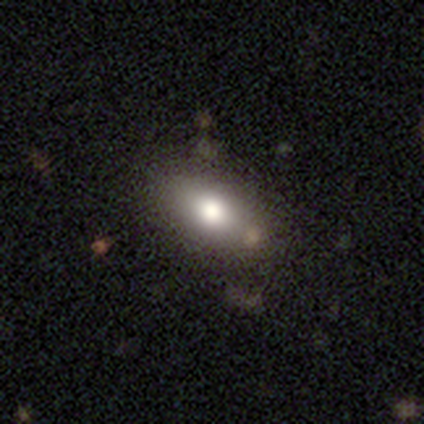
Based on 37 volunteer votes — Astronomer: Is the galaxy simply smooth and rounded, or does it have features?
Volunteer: smooth — 84%.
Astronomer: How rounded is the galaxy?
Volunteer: in between — 87%.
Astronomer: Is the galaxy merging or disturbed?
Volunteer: none — 74%.